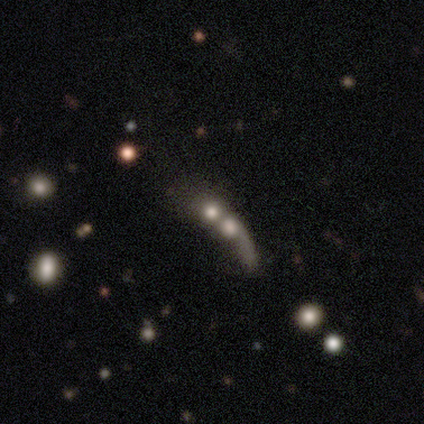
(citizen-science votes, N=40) Smooth or featured?
  - smooth: 50% *
  - featured or disk: 28%
  - star or artifact: 22%
How rounded?
  - round: 45% *
  - cigar-shaped: 30%
  - in between: 25%
Merging?
  - merger: 77% *
  - none: 10%
  - minor disturbance: 6%
  - major disturbance: 6%